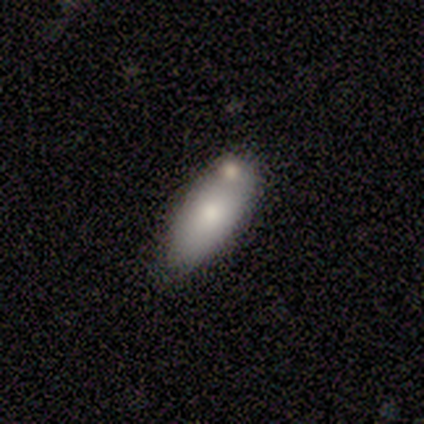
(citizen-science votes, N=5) smooth-or-featured: smooth: 60% | featured or disk: 20% | star or artifact: 20%
  how-rounded: in between: 100% | round: 0% | cigar-shaped: 0%
  merging: none: 50% (tied) | minor disturbance: 50% (tied) | major disturbance: 0% | merger: 0%